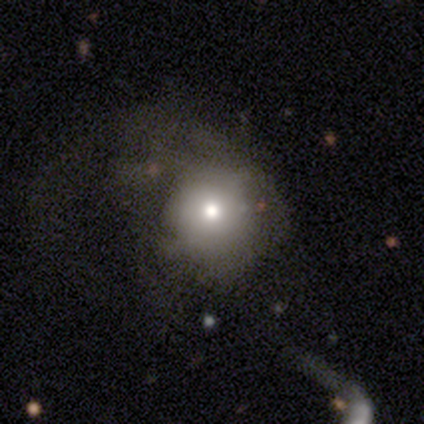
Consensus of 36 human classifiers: Smooth or featured? 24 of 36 (67%) said smooth. How rounded? 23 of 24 (96%) said round. Merging? 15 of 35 (43%) said major disturbance.